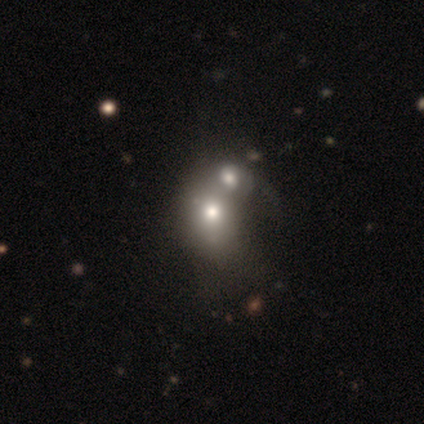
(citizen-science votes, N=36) Smooth or featured? smooth (69%)
How rounded? round (72%)
Merging? merger (50%)